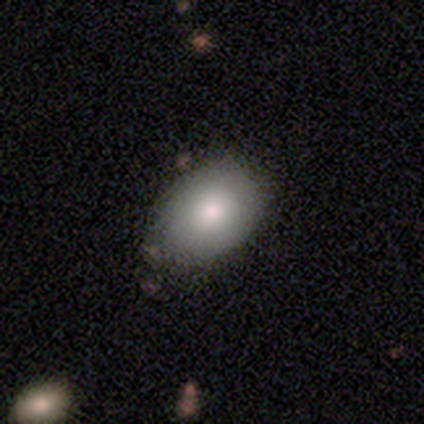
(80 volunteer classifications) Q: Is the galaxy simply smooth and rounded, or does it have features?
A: smooth — 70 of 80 (88%).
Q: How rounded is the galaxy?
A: in between — 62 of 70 (89%).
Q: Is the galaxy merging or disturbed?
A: none — 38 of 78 (49%).